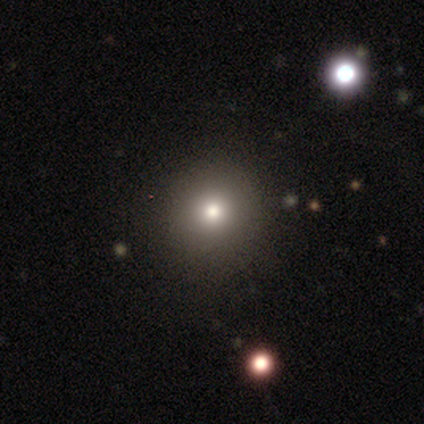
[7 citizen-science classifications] Volunteers were most divided on "smooth or featured": smooth: 57%, star or artifact: 29%, featured or disk: 14%. More confident: how rounded — round (100%); merging — none (80%).